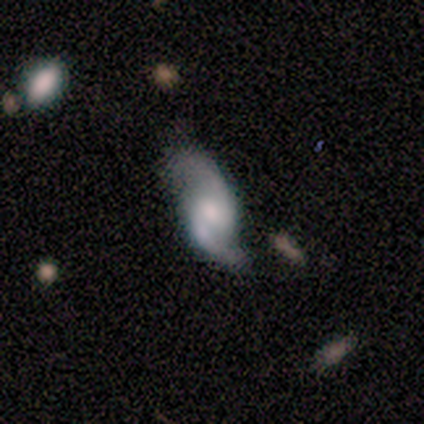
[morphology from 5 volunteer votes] featured or disk 80%, smooth 20%, star or artifact 0%. Down the decision tree: edge-on disk — no (100%); bar — weak (50%); spiral arms — yes (100%); spiral arm count — 2 (100%); spiral winding — loose (75%); bulge size — moderate (100%); merging — none (40%, tied with minor disturbance).